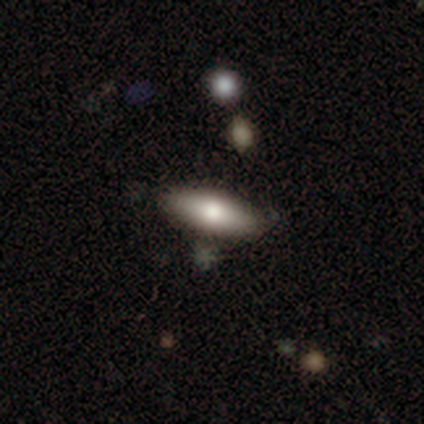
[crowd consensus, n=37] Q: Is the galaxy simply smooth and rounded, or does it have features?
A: smooth — 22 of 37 (59%).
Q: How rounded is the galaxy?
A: in between — 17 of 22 (77%).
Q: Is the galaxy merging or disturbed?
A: none — 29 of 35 (83%).